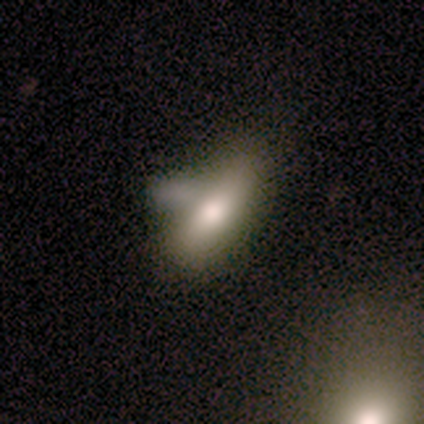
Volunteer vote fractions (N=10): Morphology: type=smooth (90%); roundness=in between (67%); merging=none (60%).